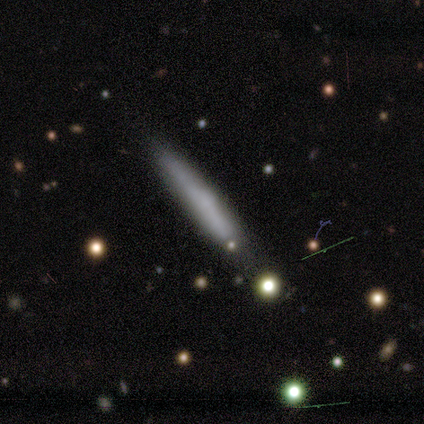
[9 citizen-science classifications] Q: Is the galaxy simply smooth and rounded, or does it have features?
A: smooth — 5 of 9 (56%).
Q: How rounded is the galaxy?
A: cigar-shaped — 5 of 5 (100%).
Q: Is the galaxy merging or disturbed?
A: none — 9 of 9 (100%).